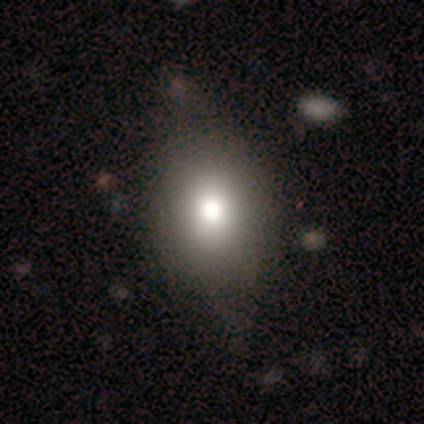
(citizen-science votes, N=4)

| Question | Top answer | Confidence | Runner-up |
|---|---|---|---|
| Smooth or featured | smooth | 100% | — |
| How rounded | in between | 75% | round (25%) |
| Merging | none | 50% | tied: minor disturbance (50%) |